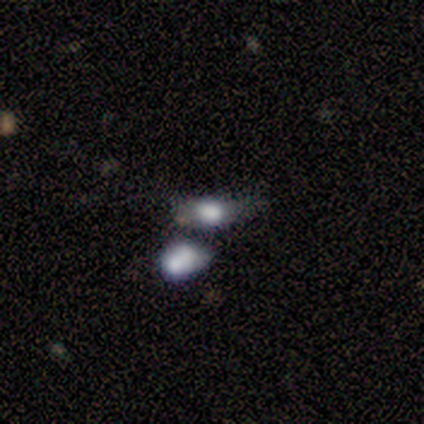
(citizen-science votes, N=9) A smooth galaxy with no disk features (78%) that is in between round and cigar-shaped (71%).

Vote fractions:
- Smooth or featured? smooth: 78% / featured or disk: 11% / star or artifact: 11%
- How rounded? in between: 71% / round: 29% / cigar-shaped: 0%
- Merging? none: 38% (tied) / merger: 38% (tied) / minor disturbance: 25% / major disturbance: 0%